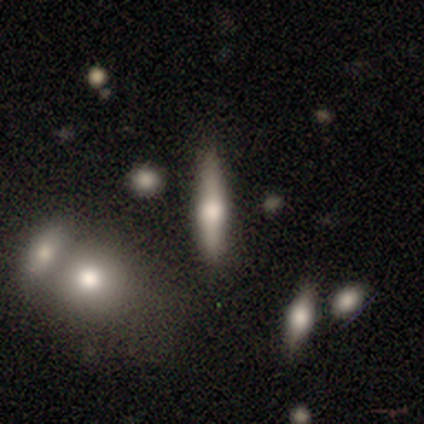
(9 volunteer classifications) smooth_or_featured: featured or disk (p=0.56) [alt: smooth p=0.44]
disk_edge_on: yes (p=0.80) [alt: no p=0.20]
edge_on_bulge: rounded (p=1.00)
merging: none (p=0.44) [alt: merger p=0.33]